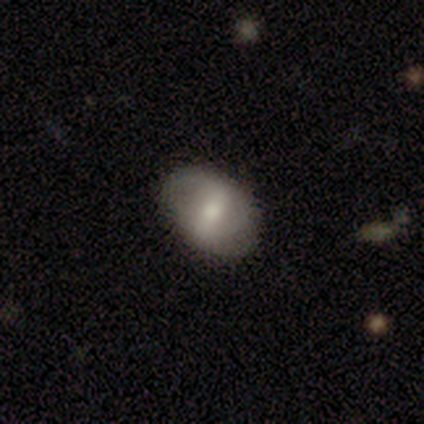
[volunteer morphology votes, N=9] smooth-or-featured: smooth: 67% | featured or disk: 33% | star or artifact: 0%
  how-rounded: in between: 100% | round: 0% | cigar-shaped: 0%
  merging: none: 100% | minor disturbance: 0% | major disturbance: 0% | merger: 0%